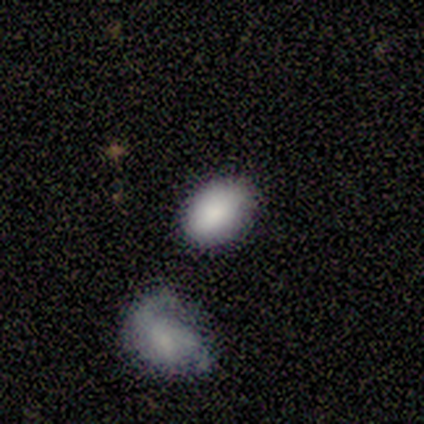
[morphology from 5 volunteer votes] smooth 100%, featured or disk 0%, star or artifact 0%. Down the decision tree: how rounded — in between (60%); merging — none (60%).